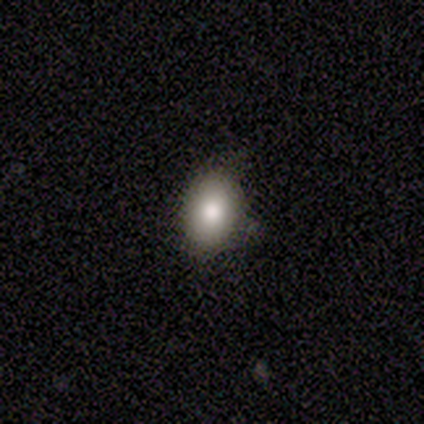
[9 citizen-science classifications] smooth-or-featured: smooth: 100% | featured or disk: 0% | star or artifact: 0%
  how-rounded: in between: 100% | round: 0% | cigar-shaped: 0%
  merging: none: 89% | minor disturbance: 11% | major disturbance: 0% | merger: 0%